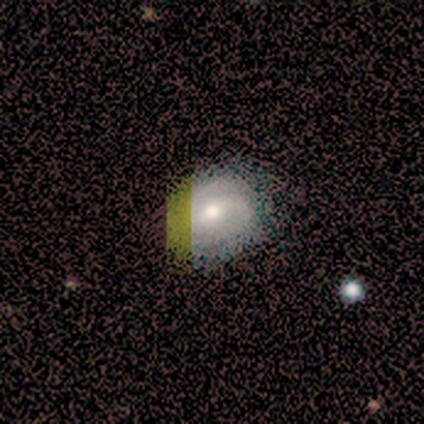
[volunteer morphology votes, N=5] Volunteers were most divided on "bar": weak: 50%, strong: 25%, no: 25%. More confident: edge-on disk — no (100%); spiral arms — yes (100%); spiral arm count — 2 (100%); smooth or featured — featured or disk (80%); merging — none (80%); bulge size — moderate (75%); spiral winding — medium (50%).